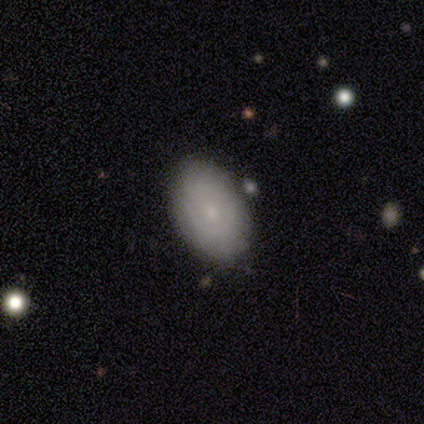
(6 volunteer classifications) smooth-or-featured: smooth: 50% (tied) | featured or disk: 50% (tied) | star or artifact: 0%
  how-rounded: in between: 100% | round: 0% | cigar-shaped: 0%
  merging: none: 100% | minor disturbance: 0% | major disturbance: 0% | merger: 0%